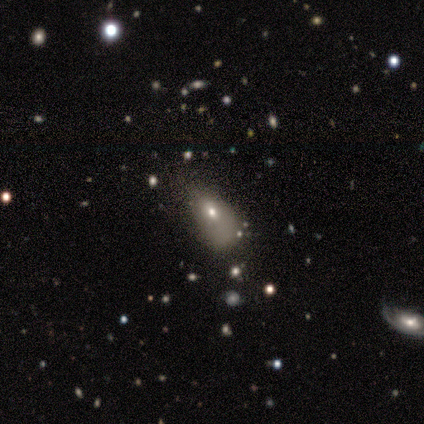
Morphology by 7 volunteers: Overall: smooth (43%; featured or disk 29%). How rounded: round (67%; in between 33%). Merging: major disturbance (40%; none 20%).